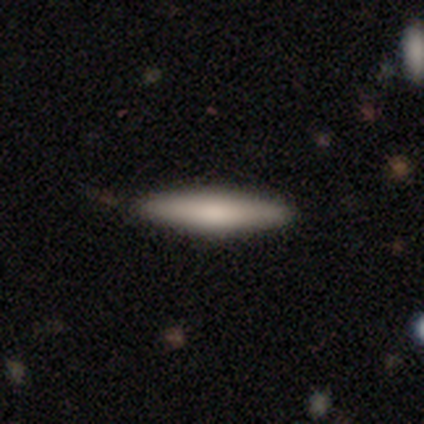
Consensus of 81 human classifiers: smooth-or-featured: smooth: 72% | featured or disk: 27% | star or artifact: 1%
  how-rounded: cigar-shaped: 91% | in between: 9% | round: 0%
  merging: none: 89% | minor disturbance: 10% | major disturbance: 1% | merger: 0%